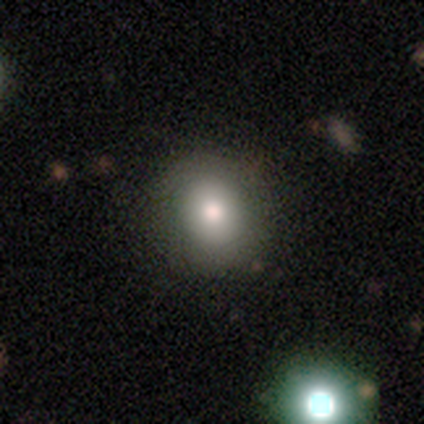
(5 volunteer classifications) smooth_or_featured: smooth (p=0.60) [alt: star or artifact p=0.40]
how_rounded: round (p=1.00)
merging: none (p=1.00)